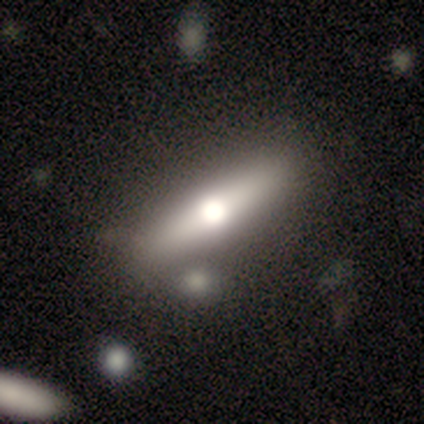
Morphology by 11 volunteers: Smooth or featured?
  - smooth: 36% * (tied)
  - featured or disk: 36% * (tied)
  - star or artifact: 27%
How rounded?
  - cigar-shaped: 100% *
  - round: 0%
  - in between: 0%
Merging?
  - none: 75% *
  - minor disturbance: 25%
  - major disturbance: 0%
  - merger: 0%